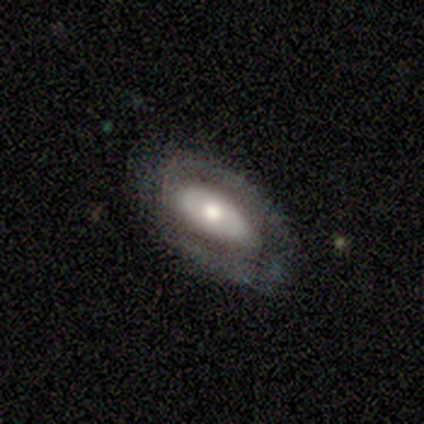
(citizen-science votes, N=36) smooth_or_featured: featured or disk (p=0.78) [alt: smooth p=0.17]
disk_edge_on: no (p=0.82) [alt: yes p=0.18]
bar: no (p=0.74) [alt: strong p=0.13]
has_spiral_arms: no (p=0.57) [alt: yes p=0.43]
bulge_size: moderate (p=0.43) [alt: small p=0.39]
merging: none (p=0.74) [alt: major disturbance p=0.18]